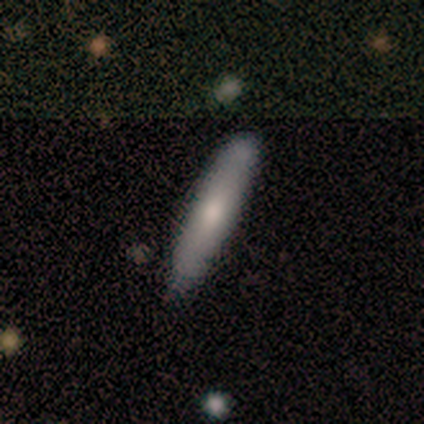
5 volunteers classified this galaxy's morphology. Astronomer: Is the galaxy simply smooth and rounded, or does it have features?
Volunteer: smooth — 80%.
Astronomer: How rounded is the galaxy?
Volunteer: cigar-shaped — 100%.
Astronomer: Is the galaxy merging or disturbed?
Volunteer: none — 75%.